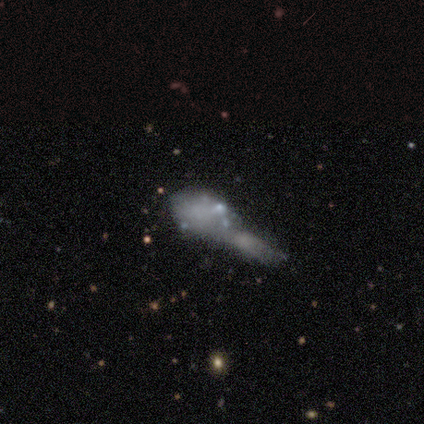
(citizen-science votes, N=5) Volunteers were most divided on "smooth or featured": smooth: 60%, featured or disk: 40%, star or artifact: 0%. More confident: how rounded — in between (67%); merging — merger (60%).